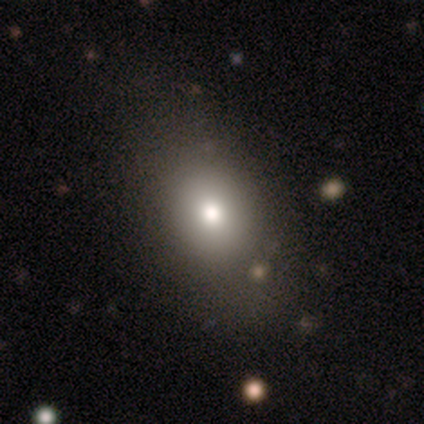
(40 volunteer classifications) A smooth galaxy with no disk features (70%) that is in between round and cigar-shaped (71%). Merging: none (41%).